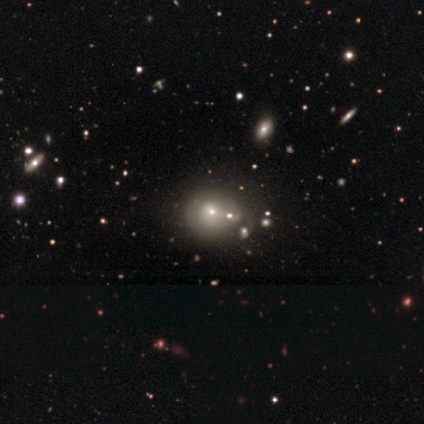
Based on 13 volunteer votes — A smooth galaxy with no disk features (62%) that is round (75%). Merging: none (64%).